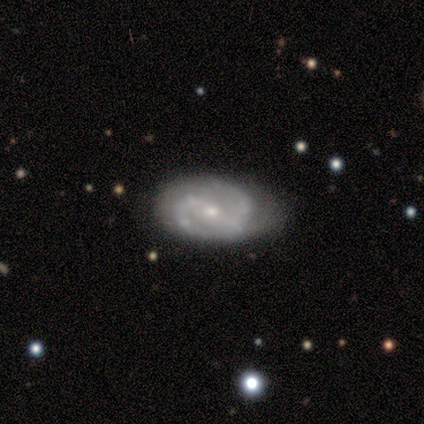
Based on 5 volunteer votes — This appears to be a featured or disk galaxy (100%) with a strong bar (60%), 2 (100%) medium (100%) spiral arms (100%) and a small central bulge (60%). Merging: none (80%).